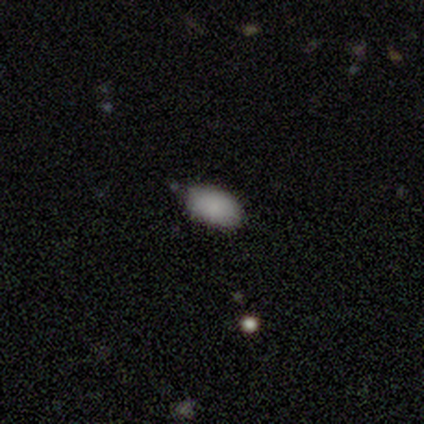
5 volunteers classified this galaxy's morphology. This is clearly a smooth galaxy (100%). How rounded: clearly in between (100%). Merging: clearly none (80%).